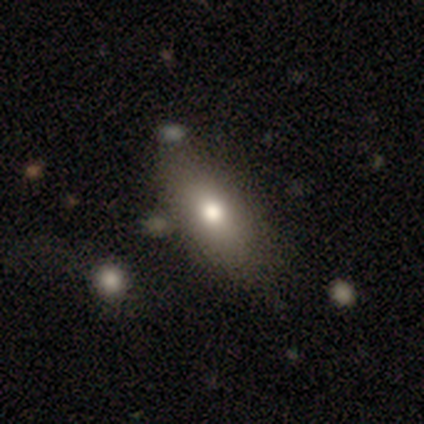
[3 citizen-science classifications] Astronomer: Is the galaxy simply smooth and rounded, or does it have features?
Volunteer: featured or disk — 67%.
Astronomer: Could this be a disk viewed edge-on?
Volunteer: no — 100%.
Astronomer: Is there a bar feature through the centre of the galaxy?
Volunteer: no — 100%.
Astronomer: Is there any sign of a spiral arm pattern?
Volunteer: no — 100%.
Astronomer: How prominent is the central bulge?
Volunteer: moderate — 100%.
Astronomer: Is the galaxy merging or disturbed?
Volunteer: none — 100%.